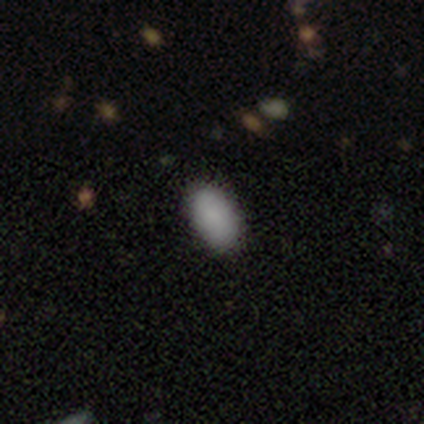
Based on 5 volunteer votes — Smooth or featured: smooth — 80% (star or artifact — 20%)
How rounded: in between — 100%
Merging: none — 100%